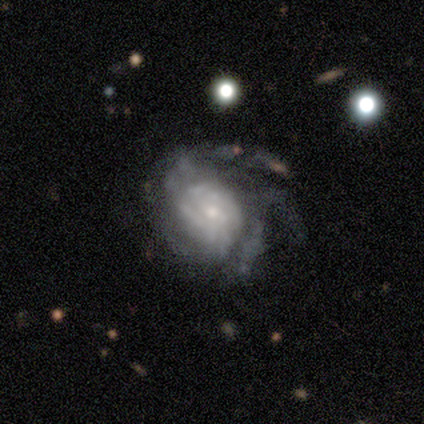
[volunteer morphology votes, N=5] Smooth or featured? 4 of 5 (80%) said featured or disk. Edge-on disk? 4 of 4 (100%) said no. Bar? 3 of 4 (75%) said no. Spiral arms? 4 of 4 (100%) said yes. Spiral winding? 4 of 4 (100%) said medium. Spiral arm count? 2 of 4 (50%) said 2. Bulge size? 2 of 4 (50%) said moderate. Merging? 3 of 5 (60%) said none.